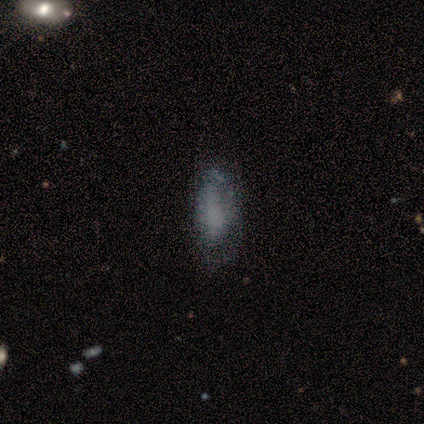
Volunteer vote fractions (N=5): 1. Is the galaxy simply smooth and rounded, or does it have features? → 60% smooth, 20% featured or disk, 20% star or artifact.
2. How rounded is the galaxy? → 67% in between, 33% cigar-shaped, 0% round.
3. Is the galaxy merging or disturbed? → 75% minor disturbance, 25% none, 0% major disturbance, 0% merger.